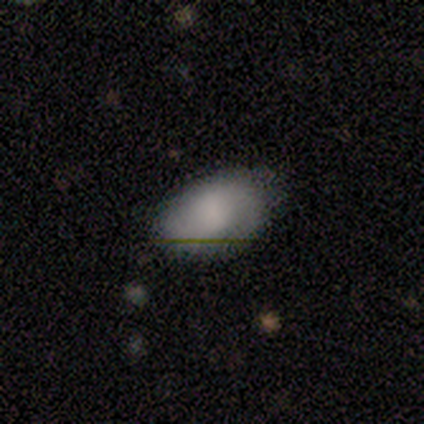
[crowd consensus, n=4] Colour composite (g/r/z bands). It shows a smooth galaxy with no disk features (75%) that is in between round and cigar-shaped (100%). Merging: none (100%).